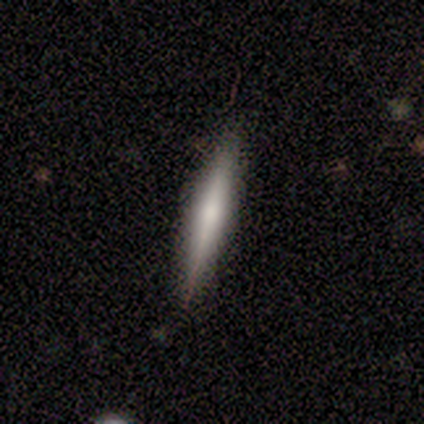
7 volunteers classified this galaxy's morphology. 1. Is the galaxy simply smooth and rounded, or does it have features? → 57% featured or disk, 43% smooth, 0% star or artifact.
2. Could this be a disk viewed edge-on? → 100% yes, 0% no.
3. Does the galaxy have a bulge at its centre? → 75% rounded, 25% none, 0% boxy.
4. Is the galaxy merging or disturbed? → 100% none, 0% minor disturbance, 0% major disturbance, 0% merger.